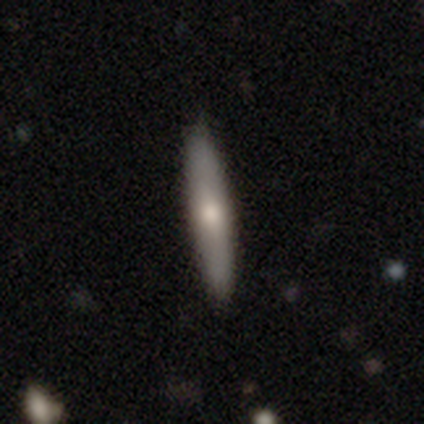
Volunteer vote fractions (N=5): Volunteers were most divided on "edge-on bulge" (2-way tie): none: 40%, rounded: 40%, boxy: 20%. More confident: smooth or featured — featured or disk (100%); edge-on disk — yes (100%); merging — none (80%).